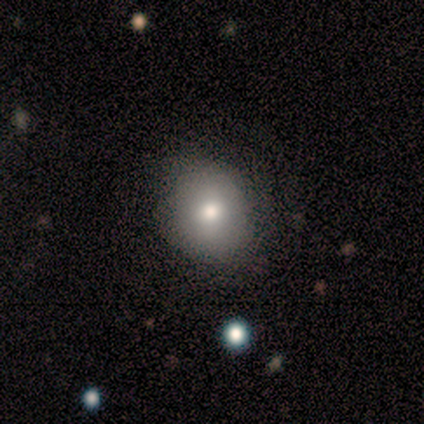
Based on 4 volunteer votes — Volunteers were most divided on "how rounded": in between: 67%, round: 33%, cigar-shaped: 0%. More confident: smooth or featured — smooth (75%); merging — none (75%).